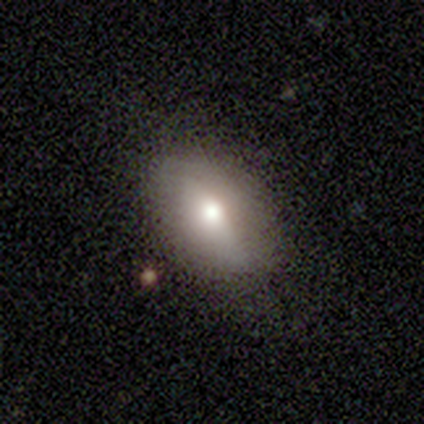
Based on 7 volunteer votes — Smooth or featured? 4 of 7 (57%) said smooth. How rounded? 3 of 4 (75%) said in between. Merging? 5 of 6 (83%) said none.